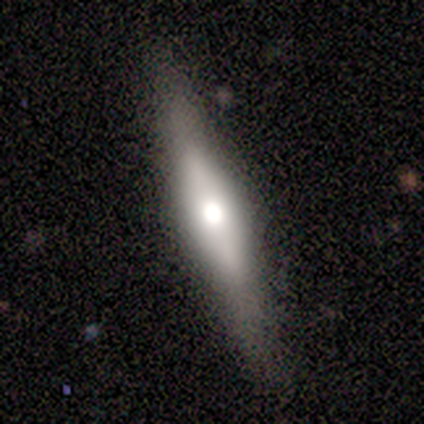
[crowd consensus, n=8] Smooth or featured? featured or disk (50%)
Edge-on disk? yes (100%)
Edge-on bulge? rounded (100%)
Merging? none (100%)